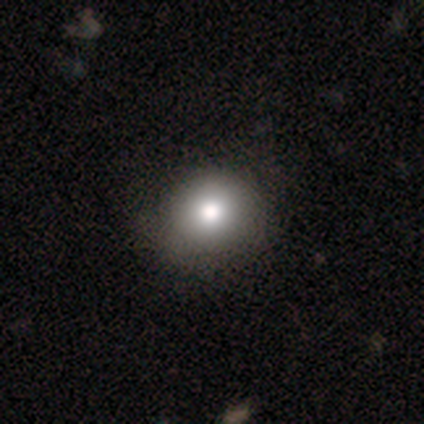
Smooth or featured? 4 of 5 (80%) said smooth. How rounded? 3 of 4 (75%) said round. Merging? 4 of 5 (80%) said none.